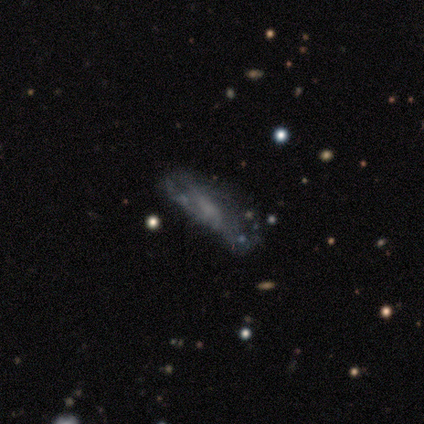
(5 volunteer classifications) Smooth or featured?
  - featured or disk: 40% * (tied)
  - star or artifact: 40% * (tied)
  - smooth: 20%
Edge-on disk?
  - no: 100% *
  - yes: 0%
Bar?
  - no: 100% *
  - strong: 0%
  - weak: 0%
Spiral arms?
  - no: 100% *
  - yes: 0%
Bulge size?
  - none: 100% *
  - dominant: 0%
  - large: 0%
  - moderate: 0%
  - small: 0%
Merging?
  - minor disturbance: 100% *
  - none: 0%
  - major disturbance: 0%
  - merger: 0%